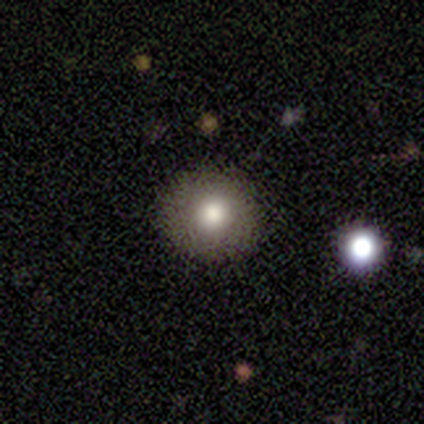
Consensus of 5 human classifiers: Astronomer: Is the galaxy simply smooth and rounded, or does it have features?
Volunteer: smooth — 80%.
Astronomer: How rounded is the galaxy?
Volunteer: round — 75%.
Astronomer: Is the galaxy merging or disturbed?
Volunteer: none — 80%.